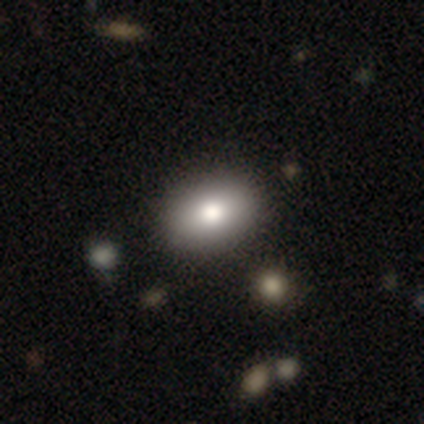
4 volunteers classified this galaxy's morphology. smooth_or_featured: smooth (p=0.50) [tied with: featured or disk p=0.50]
how_rounded: in between (p=1.00)
merging: none (p=0.50) [alt: minor disturbance p=0.25]